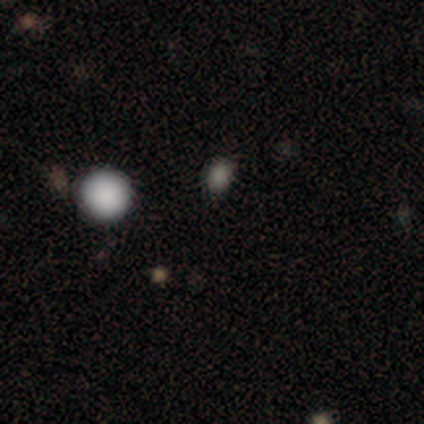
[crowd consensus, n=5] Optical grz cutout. It shows a smooth galaxy with no disk features (60%) that is in between round and cigar-shaped (67%). Merging: none (100%).